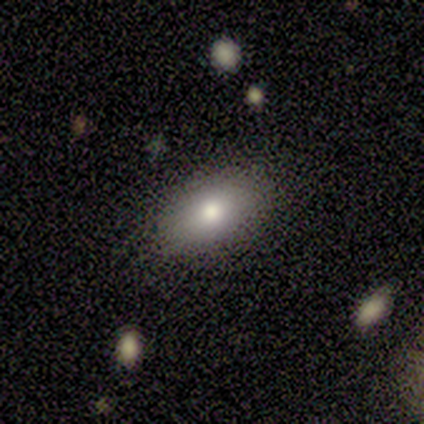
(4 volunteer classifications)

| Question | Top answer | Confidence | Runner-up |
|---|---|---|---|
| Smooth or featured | smooth | 100% | — |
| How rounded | in between | 75% | round (25%) |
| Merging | none | 75% | merger (25%) |